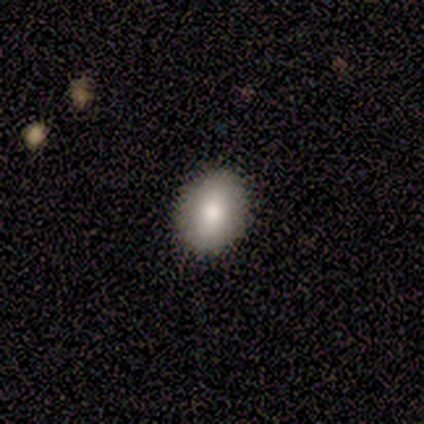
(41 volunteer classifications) smooth 85%, featured or disk 10%, star or artifact 5%. Down the decision tree: how rounded — round (51%); merging — none (100%).